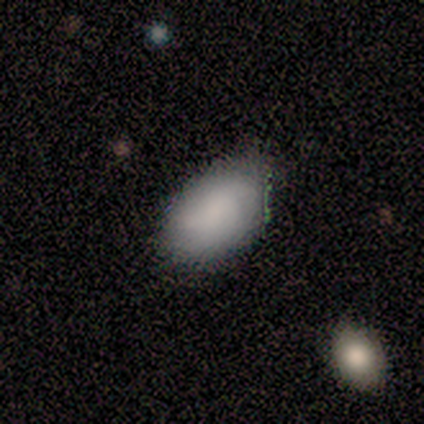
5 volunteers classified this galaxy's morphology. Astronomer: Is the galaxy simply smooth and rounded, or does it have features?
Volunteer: smooth — 80%.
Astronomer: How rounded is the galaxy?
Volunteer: in between — 100%.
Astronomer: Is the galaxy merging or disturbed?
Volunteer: none — 60% (runner-up: minor disturbance, 40%).